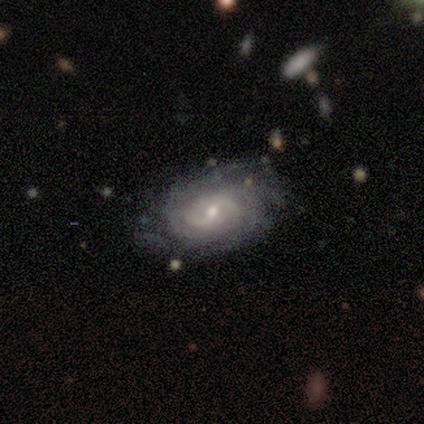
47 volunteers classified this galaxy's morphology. Smooth or featured?
  - featured or disk: 87% *
  - smooth: 9%
  - star or artifact: 4%
Edge-on disk?
  - no: 93% *
  - yes: 7%
Bar?
  - weak: 61% *
  - no: 34%
  - strong: 5%
Spiral arms?
  - yes: 100% *
  - no: 0%
Spiral winding?
  - tight: 68% *
  - medium: 26%
  - loose: 5%
Spiral arm count?
  - can't tell: 37% *
  - 2: 29%
  - more than 4: 16%
  - 3: 11%
  - 4: 8%
  - 1: 0%
Bulge size?
  - moderate: 47% * (tied)
  - small: 47% * (tied)
  - large: 5%
  - dominant: 0%
  - none: 0%
Merging?
  - none: 62% *
  - minor disturbance: 20%
  - major disturbance: 13%
  - merger: 4%